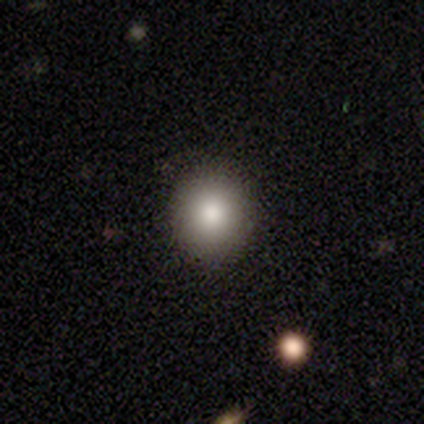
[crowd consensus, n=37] smooth_or_featured: smooth (p=0.84) [alt: star or artifact p=0.11]
how_rounded: round (p=0.90) [alt: in between p=0.10]
merging: none (p=0.91) [alt: minor disturbance p=0.03]